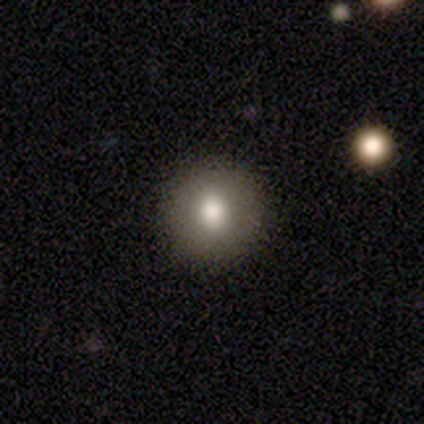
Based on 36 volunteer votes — smooth_or_featured: smooth (p=0.83) [alt: star or artifact p=0.11]
how_rounded: round (p=0.97) [alt: in between p=0.03]
merging: none (p=0.91) [alt: minor disturbance p=0.06]